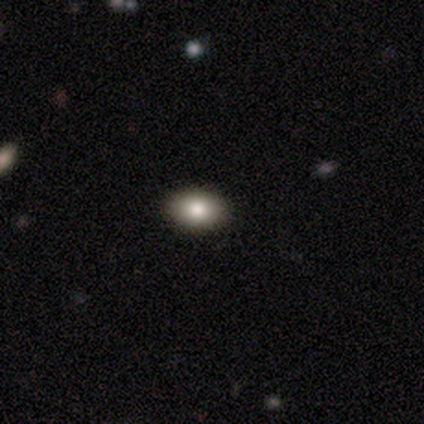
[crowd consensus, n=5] Morphology: type=smooth (100%); roundness=in between (60%); merging=none (100%).